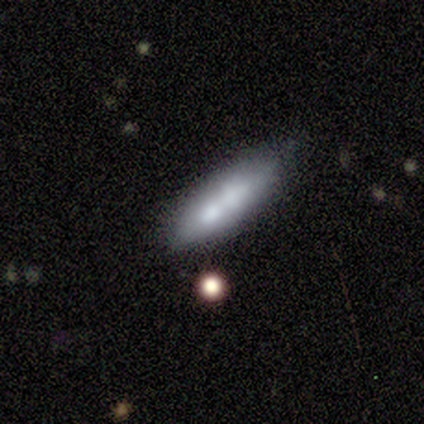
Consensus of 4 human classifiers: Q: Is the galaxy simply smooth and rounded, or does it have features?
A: smooth — 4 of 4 (100%).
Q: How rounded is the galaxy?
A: cigar-shaped — 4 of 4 (100%).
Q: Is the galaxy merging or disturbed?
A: none — 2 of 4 (50%, tied with merger).